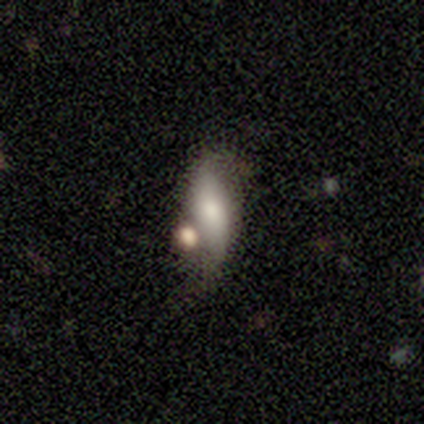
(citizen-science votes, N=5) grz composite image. It shows a smooth galaxy with no disk features (40%, tied with featured or disk) that is in between round and cigar-shaped (50%, tied with cigar-shaped). Merging: none (50%).